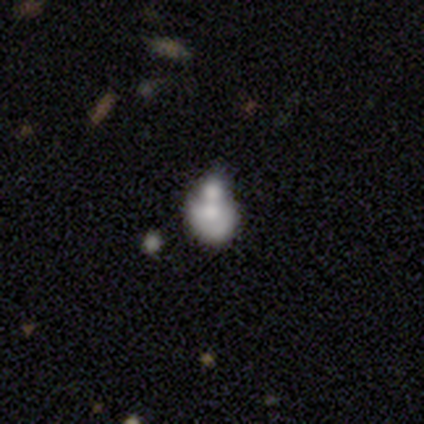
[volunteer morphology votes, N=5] Smooth or featured? 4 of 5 (80%) said featured or disk. Edge-on disk? 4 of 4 (100%) said no. Bar? 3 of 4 (75%) said no. Spiral arms? 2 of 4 (50%, tied with no) said yes. Spiral winding? 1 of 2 (50%, tied with medium) said tight. Spiral arm count? 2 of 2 (100%) said 1. Bulge size? 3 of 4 (75%) said moderate. Merging? 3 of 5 (60%) said merger.